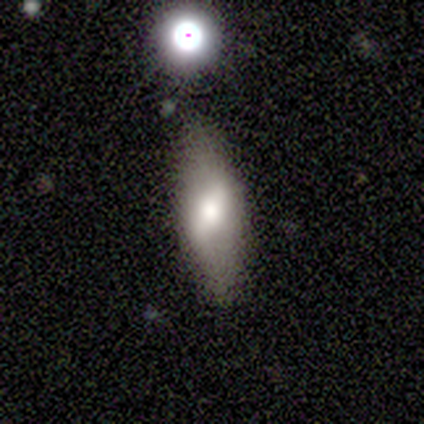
Smooth or featured? smooth (60%)
How rounded? in between (67%)
Merging? none (100%)